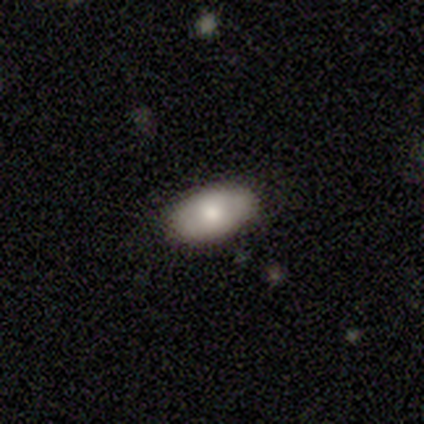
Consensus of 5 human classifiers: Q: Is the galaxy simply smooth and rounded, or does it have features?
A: smooth — 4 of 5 (80%).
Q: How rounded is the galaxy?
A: in between — 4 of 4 (100%).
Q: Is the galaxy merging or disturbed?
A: none — 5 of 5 (100%).